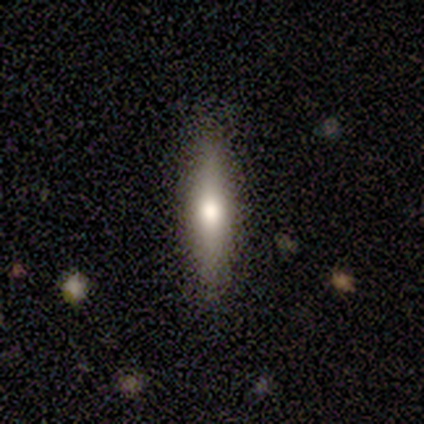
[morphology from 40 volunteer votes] This is likely a smooth galaxy (62%). How rounded: clearly cigar-shaped (84%). Merging: clearly none (82%).